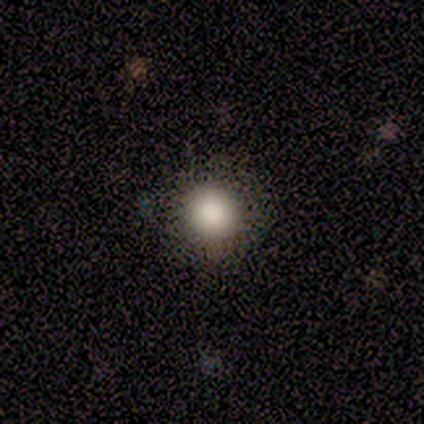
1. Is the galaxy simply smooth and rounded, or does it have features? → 80% smooth, 20% star or artifact, 0% featured or disk.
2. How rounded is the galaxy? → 100% round, 0% in between, 0% cigar-shaped.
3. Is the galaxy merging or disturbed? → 100% none, 0% minor disturbance, 0% major disturbance, 0% merger.